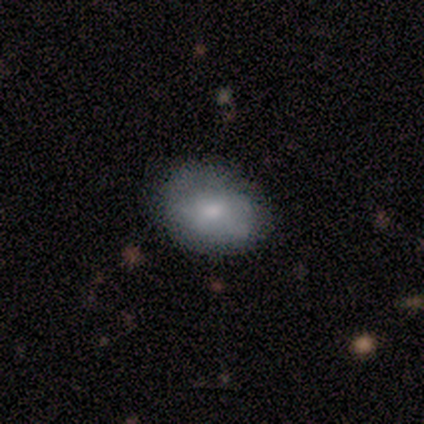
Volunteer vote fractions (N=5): Smooth or featured? smooth (80%)
How rounded? in between (100%)
Merging? none (100%)